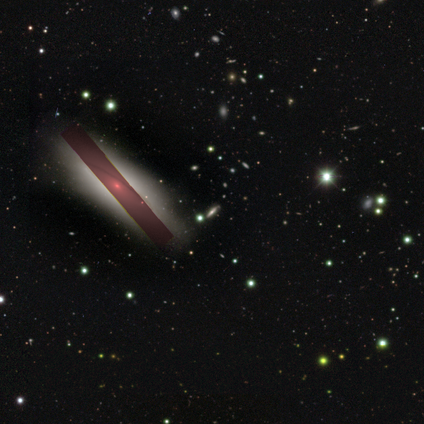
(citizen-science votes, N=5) A star or artifact, not a galaxy (60%).